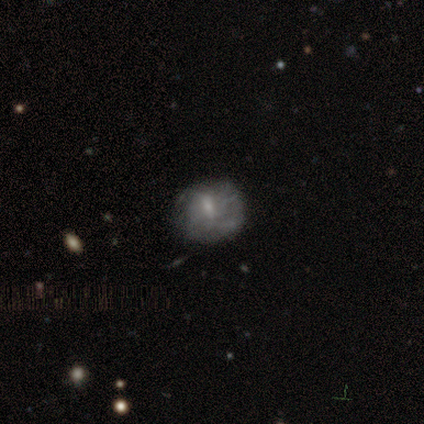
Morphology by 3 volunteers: This is likely a featured or disk galaxy (67%). It is clearly not viewed edge-on (100%). Bar: possibly weak (50%, tied with no). Spiral arm pattern: possibly yes (50%, tied with no). Spiral arm count: clearly 4 (100%). Spiral winding: clearly tight (100%). Central bulge: possibly moderate (50%, tied with small). Merging: clearly none (100%).